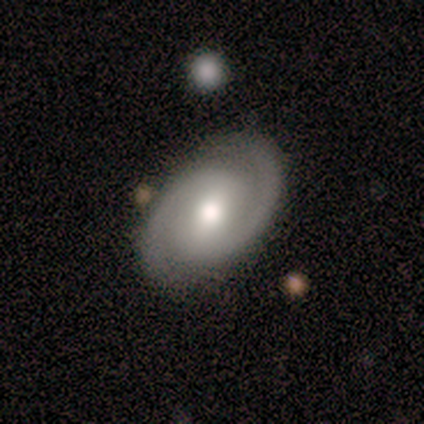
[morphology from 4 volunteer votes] Smooth or featured? featured or disk (100%)
Edge-on disk? no (100%)
Bar? strong (50%, tied with weak)
Spiral arms? yes (100%)
Spiral winding? tight (50%, tied with medium)
Spiral arm count? 2 (100%)
Bulge size? moderate (100%)
Merging? none (75%)